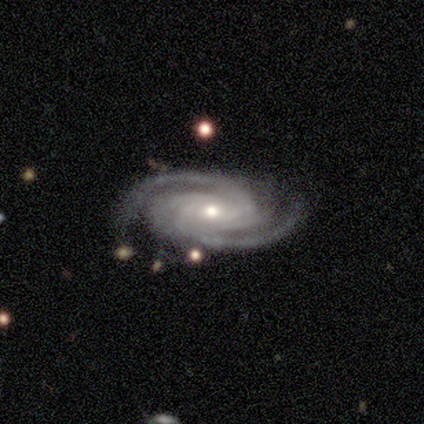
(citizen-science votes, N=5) smooth-or-featured: featured or disk: 100% | smooth: 0% | star or artifact: 0%
  disk-edge-on: no: 100% | yes: 0%
    bar: no: 60% | strong: 20% | weak: 20%
    has-spiral-arms: yes: 100% | no: 0%
      spiral-winding: tight: 60% | medium: 20% | loose: 20%
      spiral-arm-count: 2: 40% (tied) | 4: 40% (tied) | can't tell: 20% | 1: 0% | 3: 0% | more than 4: 0%
    bulge-size: moderate: 60% | small: 40% | dominant: 0% | large: 0% | none: 0%
  merging: none: 60% | minor disturbance: 40% | major disturbance: 0% | merger: 0%